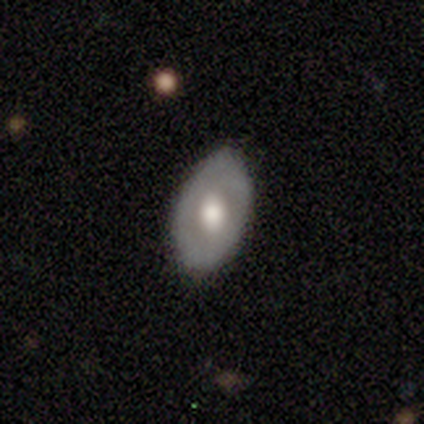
A smooth galaxy with no disk features (50%) that is in between round and cigar-shaped (90%).

Vote fractions:
- Smooth or featured? smooth: 50% / featured or disk: 45% / star or artifact: 5%
- How rounded? in between: 90% / round: 10% / cigar-shaped: 0%
- Merging? none: 79% / minor disturbance: 21% / major disturbance: 0% / merger: 0%